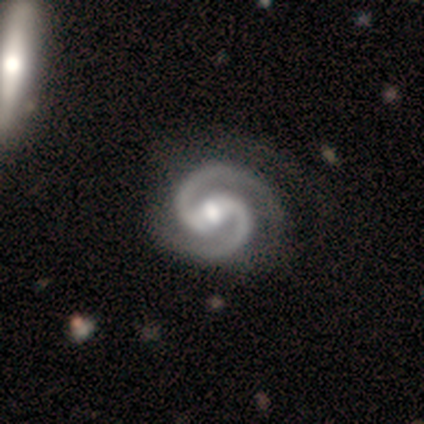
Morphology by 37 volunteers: type=featured or disk (100%); edge-on=no (100%); bar=weak (43%); spiral arms=yes (100%); winding=medium (59%); arm count=2 (100%); bulge=moderate (62%); merging=none (43%).